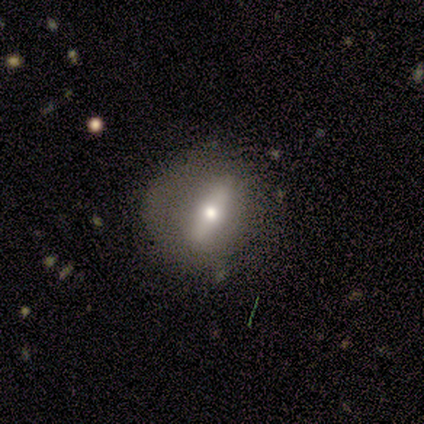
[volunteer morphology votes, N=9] Overall: featured or disk (89%). Edge-on disk: no (62%; yes 38%). Bar: weak (60%; strong 40%). Spiral arms: no (100%). Bulge size: moderate (60%; small 40%). Merging: none (67%; minor disturbance 33%).